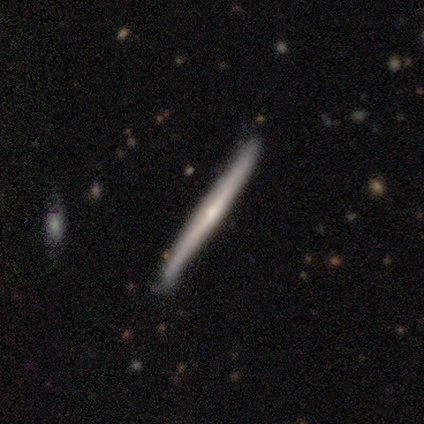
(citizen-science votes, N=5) smooth-or-featured: featured or disk: 60% | smooth: 40% | star or artifact: 0%
  disk-edge-on: yes: 100% | no: 0%
    edge-on-bulge: none: 67% | rounded: 33% | boxy: 0%
  merging: none: 60% | minor disturbance: 20% | major disturbance: 20% | merger: 0%